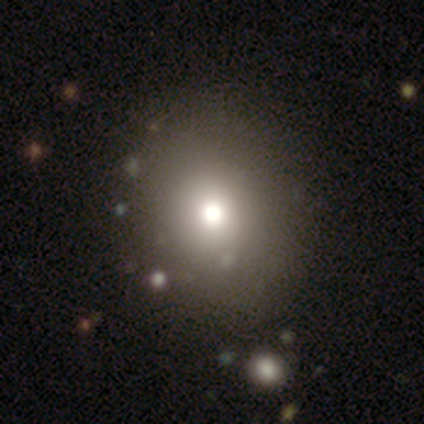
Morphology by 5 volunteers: type=smooth (60%); roundness=round (100%); merging=none (80%).